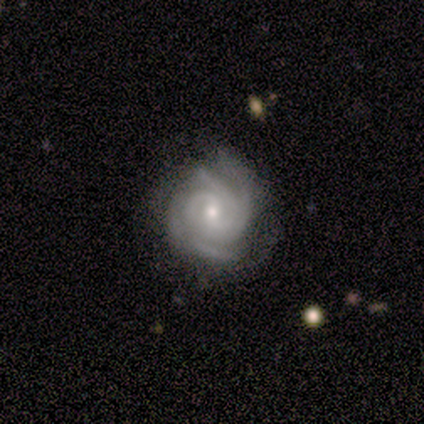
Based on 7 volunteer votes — Smooth or featured? featured or disk (100%)
Edge-on disk? no (100%)
Bar? no (57%)
Spiral arms? yes (100%)
Spiral winding? tight (71%)
Spiral arm count? 3 (57%)
Bulge size? small (57%)
Merging? none (100%)